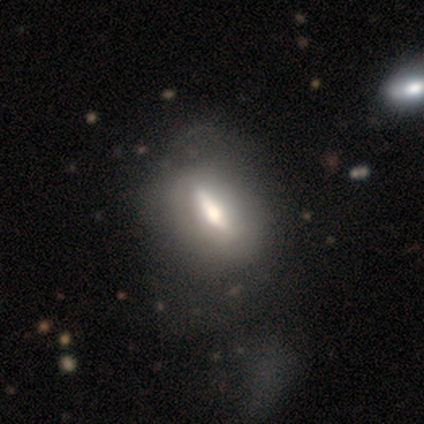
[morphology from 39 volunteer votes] smooth_or_featured: smooth (p=0.46) [alt: featured or disk p=0.44]
how_rounded: in between (p=0.67) [alt: cigar-shaped p=0.22]
merging: none (p=0.40) [alt: minor disturbance p=0.29]